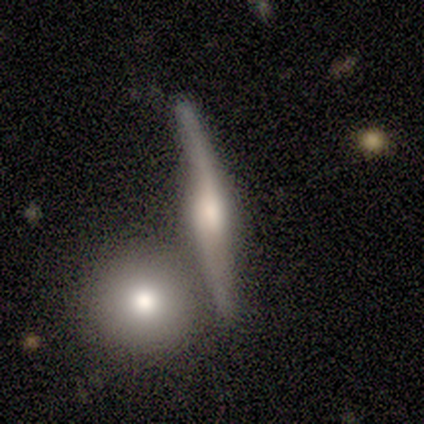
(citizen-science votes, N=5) A featured or disk galaxy (80%) viewed edge-on (100%) with a rounded central bulge (100%). Merging: merger (60%).